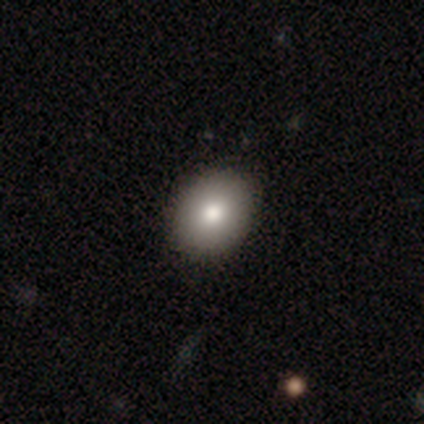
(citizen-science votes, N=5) Smooth or featured?
  - smooth: 80% *
  - featured or disk: 20%
  - star or artifact: 0%
How rounded?
  - round: 50% * (tied)
  - in between: 50% * (tied)
  - cigar-shaped: 0%
Merging?
  - none: 100% *
  - minor disturbance: 0%
  - major disturbance: 0%
  - merger: 0%